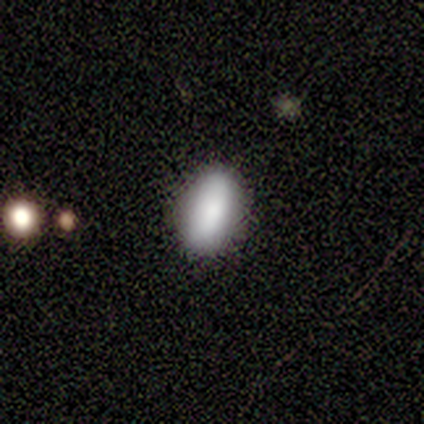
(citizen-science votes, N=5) Smooth or featured?
  - smooth: 80% *
  - star or artifact: 20%
  - featured or disk: 0%
How rounded?
  - in between: 75% *
  - round: 25%
  - cigar-shaped: 0%
Merging?
  - none: 100% *
  - minor disturbance: 0%
  - major disturbance: 0%
  - merger: 0%